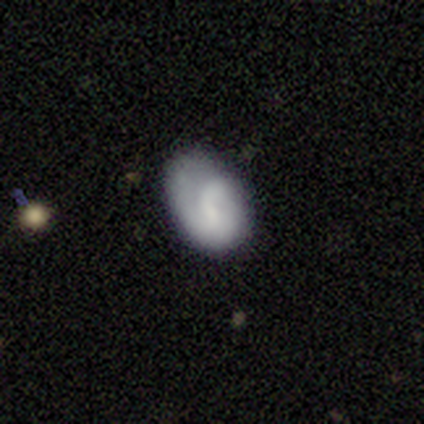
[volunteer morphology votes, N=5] Overall: smooth (60%; featured or disk 40%). How rounded: in between (67%; round 33%). Merging: none (80%).